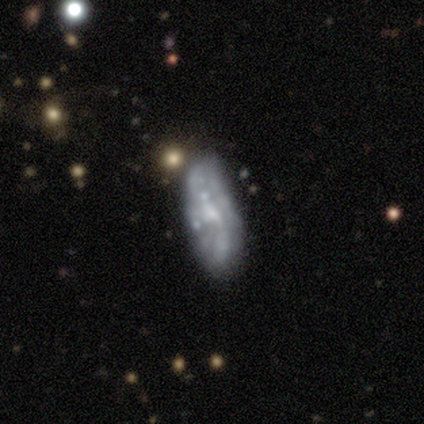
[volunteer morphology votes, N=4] Q: Smooth or featured?
A: featured or disk (75%); runner-up: smooth (25%)
Q: Edge-on disk?
A: no (67%); runner-up: yes (33%)
Q: Bar?
A: no (100%)
Q: Spiral arms?
A: yes (50%); tied with: no (50%)
Q: Spiral winding?
A: loose (100%)
Q: Spiral arm count?
A: can't tell (100%)
Q: Bulge size?
A: moderate (50%); tied with: small (50%)
Q: Merging?
A: none (75%); runner-up: minor disturbance (25%)